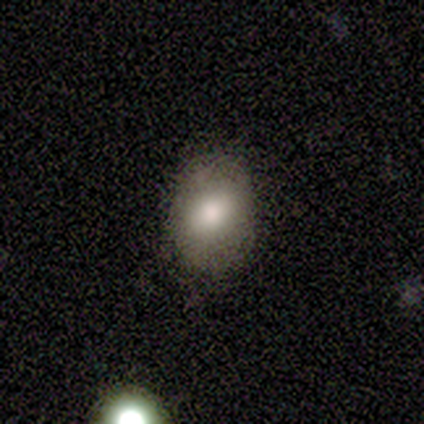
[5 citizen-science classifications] smooth_or_featured: smooth (p=1.00)
how_rounded: in between (p=0.80) [alt: round p=0.20]
merging: none (p=1.00)